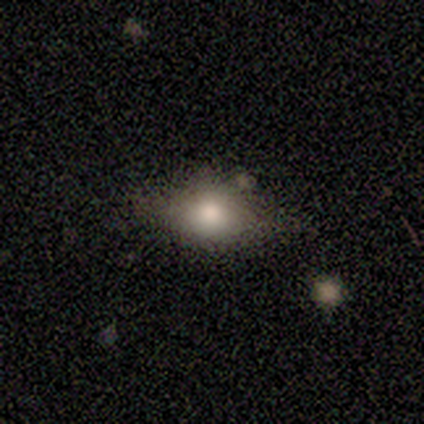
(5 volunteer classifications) This appears to be a smooth galaxy with no disk features (80%) that is in between round and cigar-shaped (75%). Merging: none (60%).